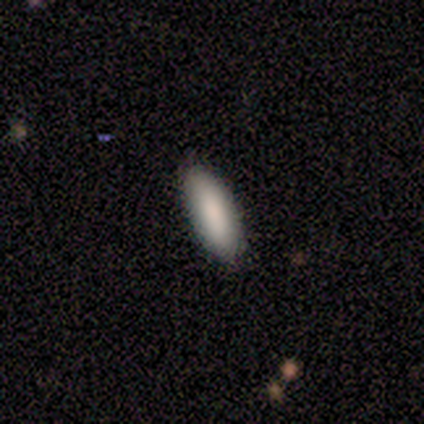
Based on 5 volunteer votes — Smooth or featured? smooth (100%)
How rounded? in between (80%)
Merging? none (100%)